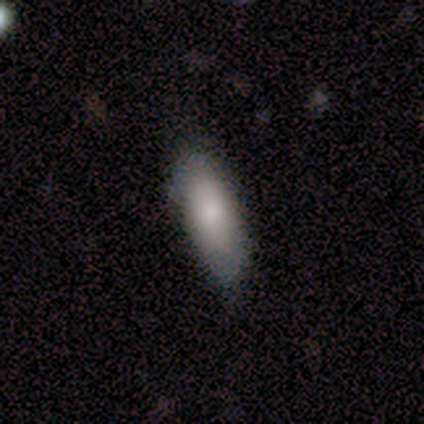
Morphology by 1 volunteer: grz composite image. It shows a smooth galaxy with no disk features (100%) that is in between round and cigar-shaped (100%). Merging: none (100%).